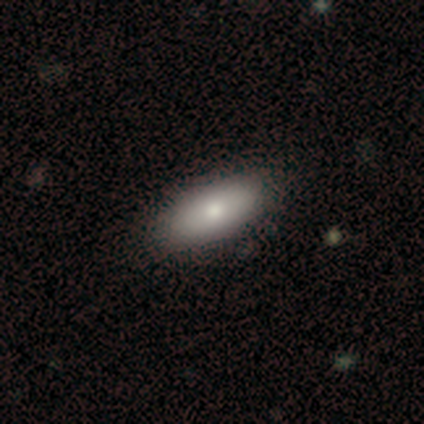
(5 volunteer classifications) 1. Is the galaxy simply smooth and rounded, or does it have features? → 100% smooth, 0% featured or disk, 0% star or artifact.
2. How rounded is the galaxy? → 80% in between, 20% round, 0% cigar-shaped.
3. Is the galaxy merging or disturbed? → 100% none, 0% minor disturbance, 0% major disturbance, 0% merger.